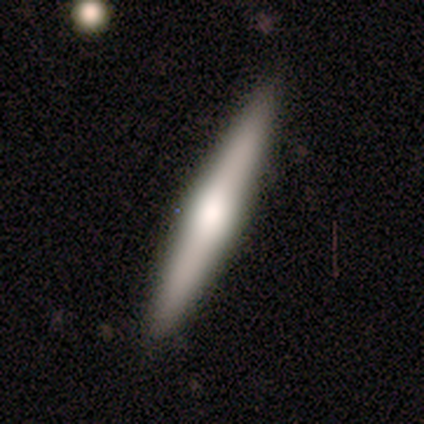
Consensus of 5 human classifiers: Smooth or featured: featured or disk — 80% (smooth — 20%)
Edge-on disk: yes — 100%
Edge-on bulge: rounded — 75% (boxy — 25%)
Merging: none — 80% (minor disturbance — 20%)